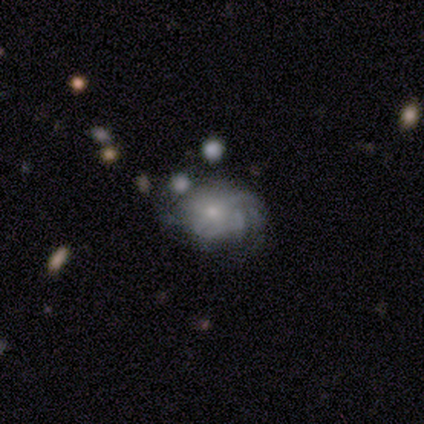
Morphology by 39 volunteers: Smooth or featured: featured or disk — 82% (smooth — 10%)
Edge-on disk: no — 94% (yes — 6%)
Bar: no — 73% (weak — 23%)
Spiral arms: yes — 80% (no — 20%)
Spiral winding: medium — 42% (tight — 38%)
Spiral arm count: can't tell — 75% (2 — 12%)
Bulge size: small — 60% (moderate — 33%)
Merging: none — 56% (major disturbance — 19%)